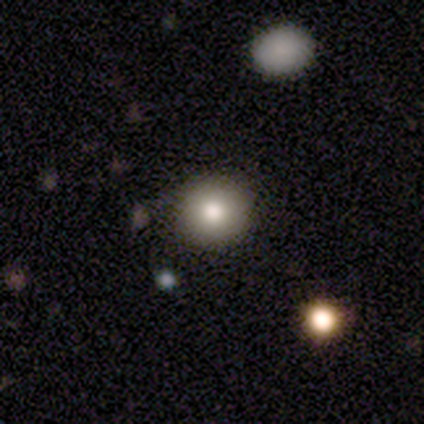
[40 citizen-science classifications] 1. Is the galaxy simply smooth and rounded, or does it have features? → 75% smooth, 12% featured or disk, 12% star or artifact.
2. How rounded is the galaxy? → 100% round, 0% in between, 0% cigar-shaped.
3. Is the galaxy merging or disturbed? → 97% none, 3% minor disturbance, 0% major disturbance, 0% merger.